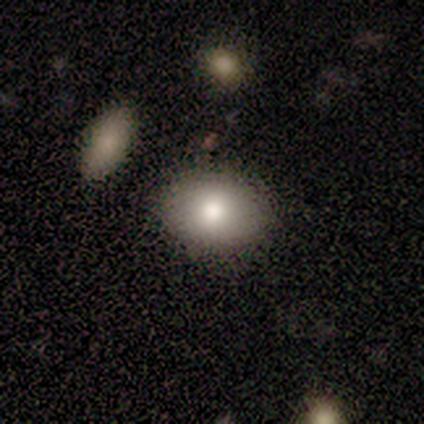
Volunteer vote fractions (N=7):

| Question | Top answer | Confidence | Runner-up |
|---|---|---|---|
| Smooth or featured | smooth | 100% | — |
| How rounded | in between | 71% | round (29%) |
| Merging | none | 100% | — |